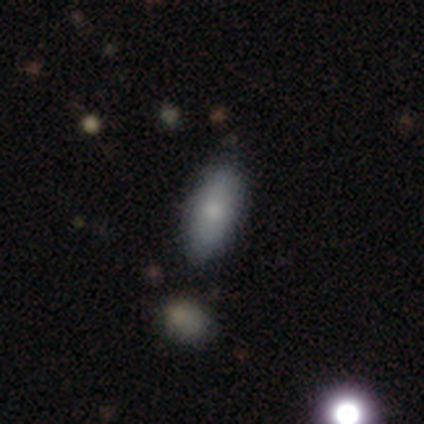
Smooth or featured?
  - smooth: 80% *
  - featured or disk: 20%
  - star or artifact: 0%
How rounded?
  - in between: 100% *
  - round: 0%
  - cigar-shaped: 0%
Merging?
  - none: 80% *
  - minor disturbance: 20%
  - major disturbance: 0%
  - merger: 0%